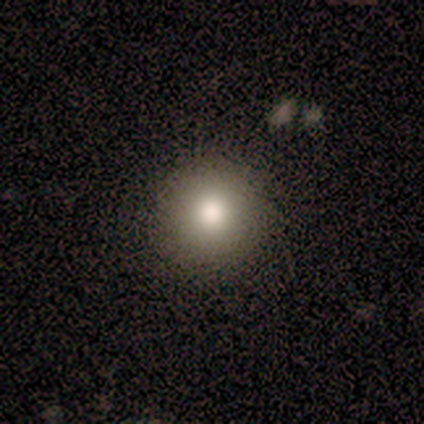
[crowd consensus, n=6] Smooth or featured?
  - smooth: 67% *
  - star or artifact: 33%
  - featured or disk: 0%
How rounded?
  - round: 100% *
  - in between: 0%
  - cigar-shaped: 0%
Merging?
  - none: 100% *
  - minor disturbance: 0%
  - major disturbance: 0%
  - merger: 0%